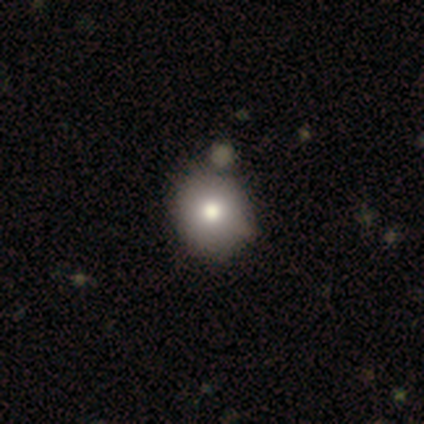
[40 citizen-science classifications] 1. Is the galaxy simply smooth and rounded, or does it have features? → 88% smooth, 10% featured or disk, 2% star or artifact.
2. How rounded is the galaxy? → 97% round, 3% in between, 0% cigar-shaped.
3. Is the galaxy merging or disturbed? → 62% none, 15% merger, 8% minor disturbance, 3% major disturbance.